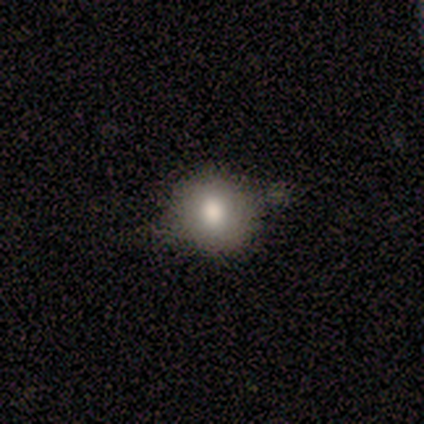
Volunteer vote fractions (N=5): Smooth or featured? 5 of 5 (100%) said smooth. How rounded? 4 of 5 (80%) said round. Merging? 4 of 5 (80%) said none.